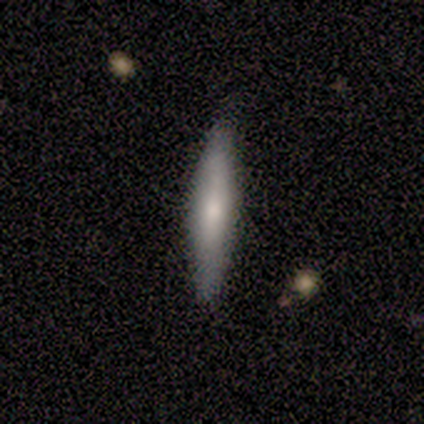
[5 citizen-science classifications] Smooth or featured? smooth (60%)
How rounded? cigar-shaped (100%)
Merging? none (80%)